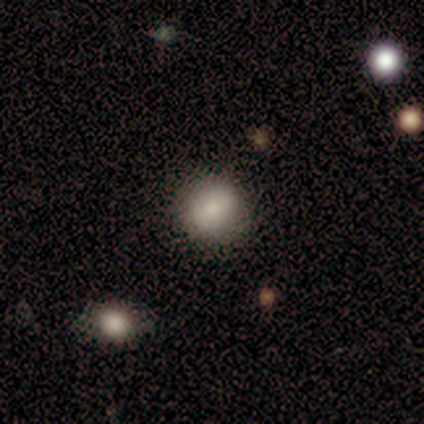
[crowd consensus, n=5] This appears to be a smooth galaxy with no disk features (100%) that is round (100%). Merging: none (100%).